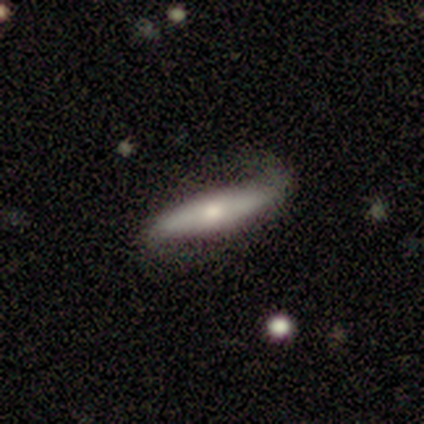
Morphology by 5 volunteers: A smooth galaxy with no disk features (100%) that is in between round and cigar-shaped (40%, tied with cigar-shaped). Merging: minor disturbance (80%).